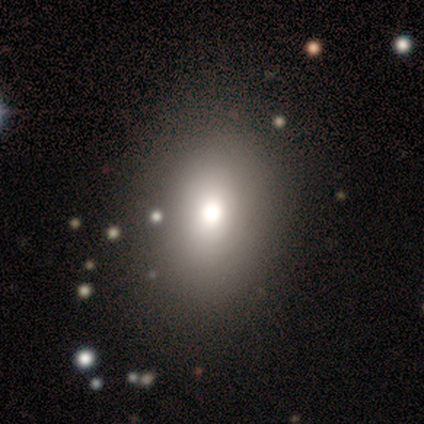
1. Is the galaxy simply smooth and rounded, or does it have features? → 75% smooth, 25% featured or disk, 0% star or artifact.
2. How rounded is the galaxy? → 83% in between, 17% round, 0% cigar-shaped.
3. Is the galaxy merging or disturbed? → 88% none, 12% major disturbance, 0% minor disturbance, 0% merger.